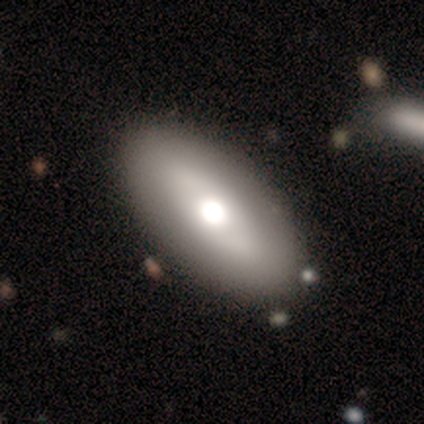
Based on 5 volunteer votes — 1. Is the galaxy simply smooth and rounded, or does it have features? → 60% featured or disk, 20% smooth, 20% star or artifact.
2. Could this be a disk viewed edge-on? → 67% no, 33% yes.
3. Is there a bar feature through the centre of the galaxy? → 50% weak (tied), 50% no (tied), 0% strong.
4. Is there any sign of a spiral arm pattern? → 100% no, 0% yes.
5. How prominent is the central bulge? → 50% large (tied), 50% moderate (tied), 0% dominant, 0% small, 0% none.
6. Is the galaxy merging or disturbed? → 100% none, 0% minor disturbance, 0% major disturbance, 0% merger.